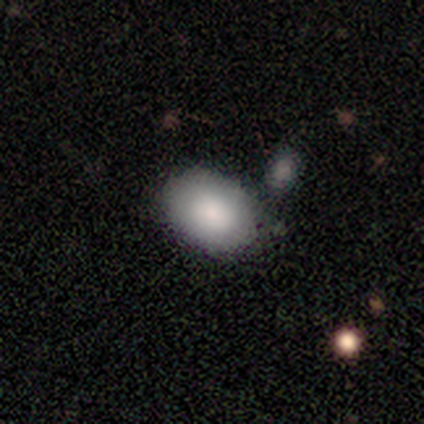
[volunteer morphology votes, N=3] A smooth galaxy with no disk features (67%) that is in between round and cigar-shaped (100%).

Vote fractions:
- Smooth or featured? smooth: 67% / featured or disk: 33% / star or artifact: 0%
- How rounded? in between: 100% / round: 0% / cigar-shaped: 0%
- Merging? none: 100% / minor disturbance: 0% / major disturbance: 0% / merger: 0%